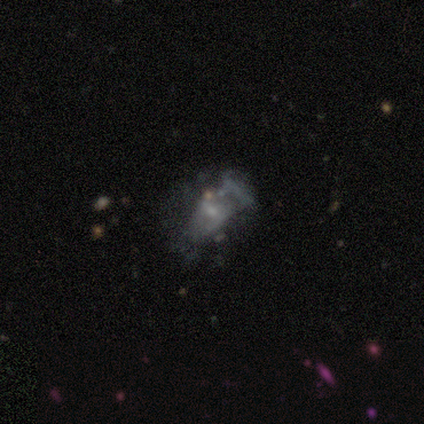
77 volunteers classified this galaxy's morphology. Smooth or featured?
  - featured or disk: 73% *
  - smooth: 14%
  - star or artifact: 13%
Edge-on disk?
  - no: 100% *
  - yes: 0%
Bar?
  - no: 75% *
  - weak: 20%
  - strong: 5%
Spiral arms?
  - no: 84% *
  - yes: 16%
Bulge size?
  - small: 59% *
  - none: 30%
  - moderate: 11%
  - dominant: 0%
  - large: 0%
Merging?
  - none: 22% *
  - major disturbance: 19%
  - minor disturbance: 13%
  - merger: 9%